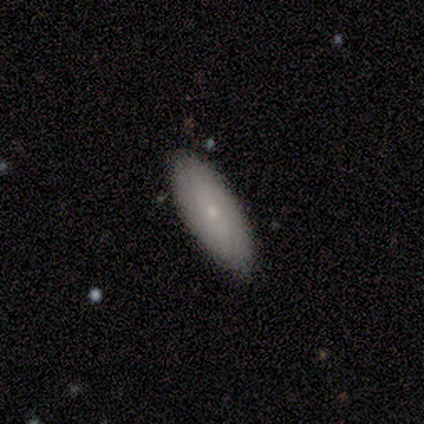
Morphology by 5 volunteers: Volunteers were most divided on "smooth or featured": smooth: 60%, featured or disk: 40%, star or artifact: 0%. More confident: how rounded — in between (100%); merging — none (100%).